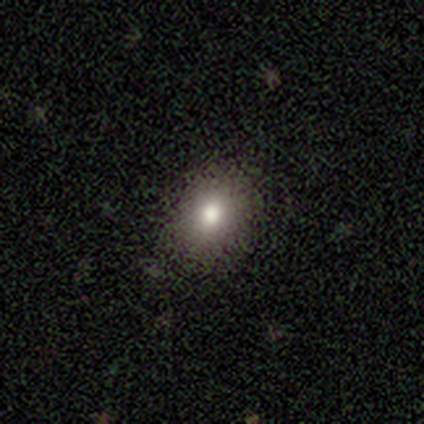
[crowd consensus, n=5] This appears to be a smooth galaxy with no disk features (100%) that is in between round and cigar-shaped (60%). Merging: none (100%).